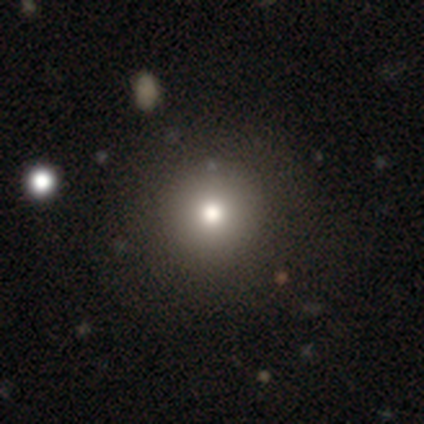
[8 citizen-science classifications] Smooth or featured? 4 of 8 (50%) said smooth. How rounded? 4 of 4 (100%) said round. Merging? 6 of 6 (100%) said none.